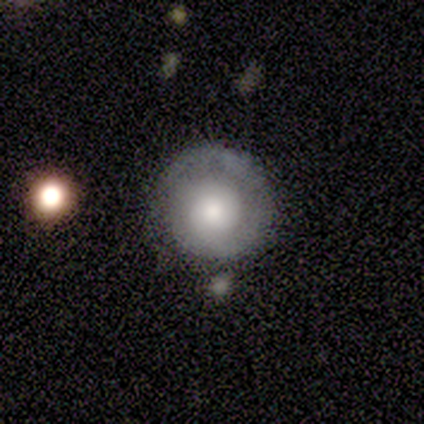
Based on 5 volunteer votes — A featured or disk galaxy (60%) with no bar (100%), 1 (50%, tied with can't tell) tight (100%) spiral arms (67%) and a moderate central bulge (67%).

Vote fractions:
- Smooth or featured? featured or disk: 60% / smooth: 20% / star or artifact: 20%
- Edge-on disk? no: 100% / yes: 0%
- Bar? no: 100% / strong: 0% / weak: 0%
- Spiral arms? yes: 67% / no: 33%
- Spiral winding? tight: 100% / medium: 0% / loose: 0%
- Spiral arm count? 1: 50% (tied) / can't tell: 50% (tied) / 2: 0% / 3: 0% / 4: 0% / more than 4: 0%
- Bulge size? moderate: 67% / small: 33% / dominant: 0% / large: 0% / none: 0%
- Merging? none: 50% / minor disturbance: 25% / merger: 25% / major disturbance: 0%